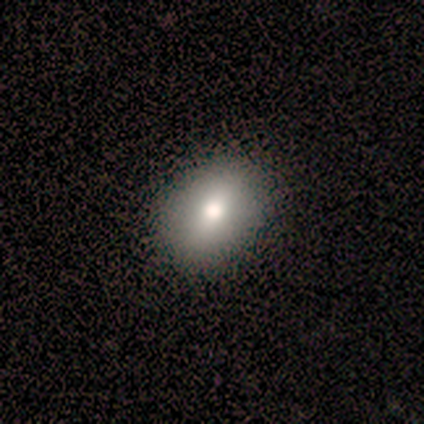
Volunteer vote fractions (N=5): Overall: smooth (100%). How rounded: round (60%; in between 40%). Merging: none (100%).